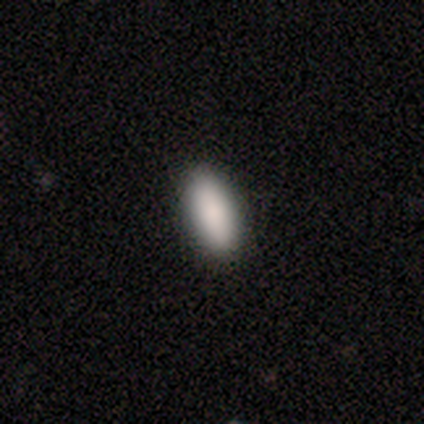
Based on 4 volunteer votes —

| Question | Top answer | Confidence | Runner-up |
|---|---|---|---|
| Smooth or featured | smooth | 75% | star or artifact (25%) |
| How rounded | in between | 67% | cigar-shaped (33%) |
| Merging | none | 100% | — |